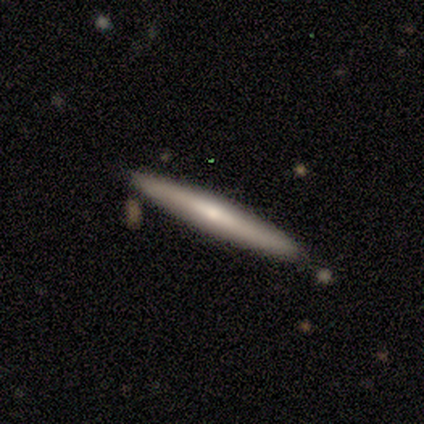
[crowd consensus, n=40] Smooth or featured: smooth — 52% (featured or disk — 45%)
How rounded: cigar-shaped — 100%
Merging: none — 92% (minor disturbance — 5%)